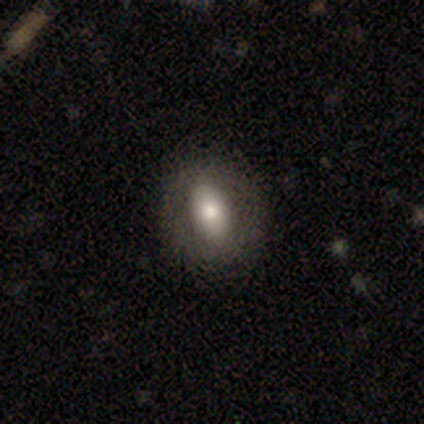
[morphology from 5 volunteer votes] This is likely a smooth galaxy (60%). How rounded: clearly in between (100%). Merging: clearly none (100%).